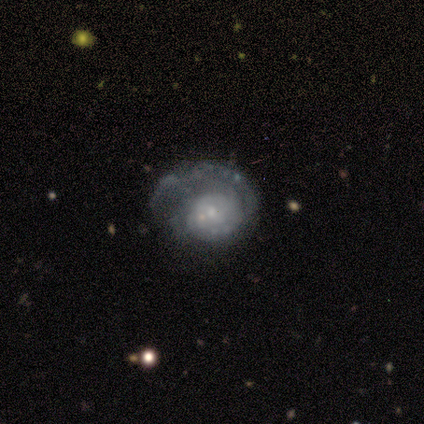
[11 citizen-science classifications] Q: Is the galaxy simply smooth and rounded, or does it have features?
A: featured or disk — 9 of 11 (82%).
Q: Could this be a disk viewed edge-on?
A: no — 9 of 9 (100%).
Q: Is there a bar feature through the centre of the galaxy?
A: no — 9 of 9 (100%).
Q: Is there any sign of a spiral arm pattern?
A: yes — 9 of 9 (100%).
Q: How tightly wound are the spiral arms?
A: tight — 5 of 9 (56%).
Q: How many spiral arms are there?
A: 1 — 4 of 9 (44%).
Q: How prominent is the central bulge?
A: small — 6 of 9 (67%).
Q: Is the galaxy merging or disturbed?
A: major disturbance — 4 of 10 (40%).